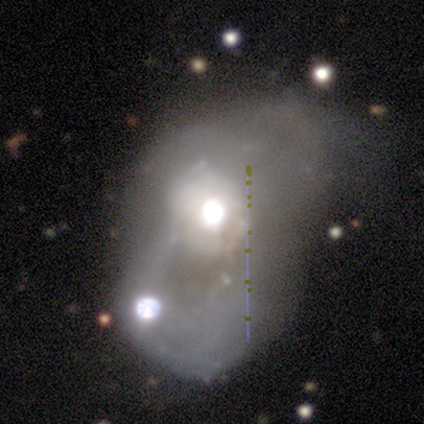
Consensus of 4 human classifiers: A featured or disk galaxy (100%) with no bar (100%), no spiral arms (100%) and a large central bulge (50%, tied with moderate). Merging: merger (50%).